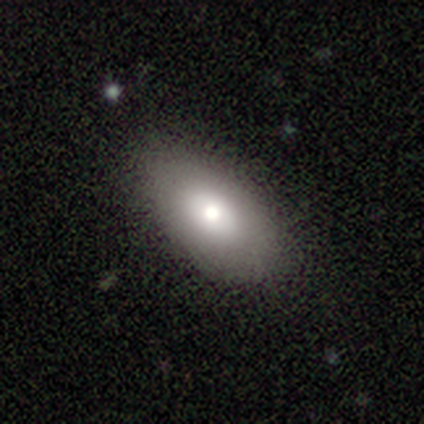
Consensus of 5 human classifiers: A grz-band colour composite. It shows a smooth galaxy with no disk features (60%) that is in between round and cigar-shaped (100%). Merging: none (100%).